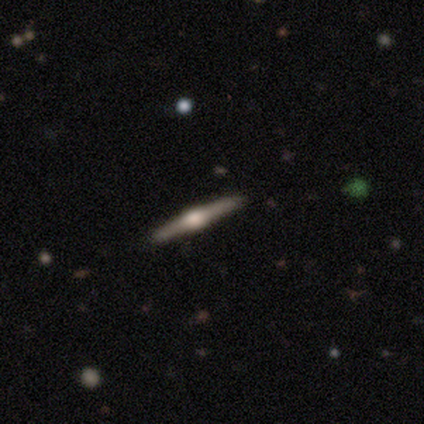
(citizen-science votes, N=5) Volunteers were most divided on "merging": none: 80%, minor disturbance: 20%, major disturbance: 0%, merger: 0%. More confident: smooth or featured — featured or disk (100%); edge-on disk — yes (100%); edge-on bulge — rounded (100%).